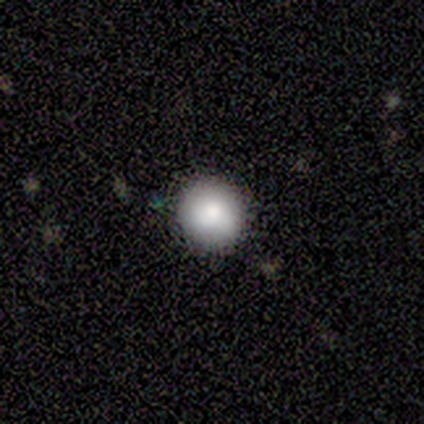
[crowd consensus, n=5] smooth-or-featured: star or artifact: 60% | smooth: 20% | featured or disk: 20%